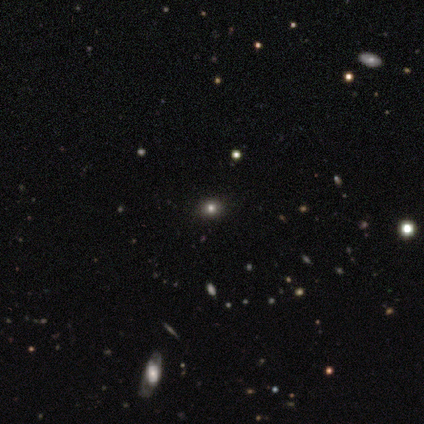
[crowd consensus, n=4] Overall: smooth (50%, tied with star or artifact). How rounded: round (50%, tied with in between). Merging: none (100%).